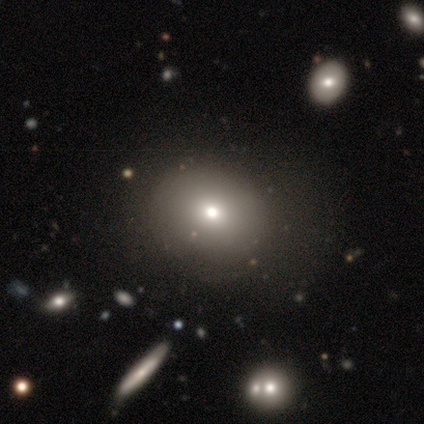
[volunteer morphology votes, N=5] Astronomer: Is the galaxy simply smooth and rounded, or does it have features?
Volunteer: smooth — 40%, tied with featured or disk at 40%.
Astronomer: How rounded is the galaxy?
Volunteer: round — 50%, tied with in between at 50%.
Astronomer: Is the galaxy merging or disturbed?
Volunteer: major disturbance — 50%.